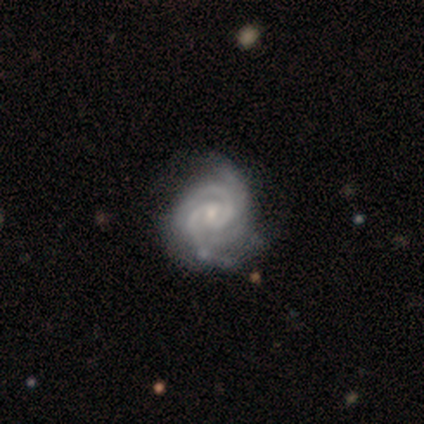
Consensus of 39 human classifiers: smooth-or-featured: featured or disk: 100% | smooth: 0% | star or artifact: 0%
  disk-edge-on: no: 100% | yes: 0%
    bar: no: 59% | weak: 33% | strong: 8%
    has-spiral-arms: yes: 100% | no: 0%
      spiral-winding: tight: 77% | medium: 21% | loose: 3%
      spiral-arm-count: 3: 41% | 2: 36% | 4: 15% | more than 4: 5% | can't tell: 3% | 1: 0%
    bulge-size: small: 69% | moderate: 28% | none: 3% | dominant: 0% | large: 0%
  merging: none: 38% | minor disturbance: 23% | merger: 5% | major disturbance: 3%